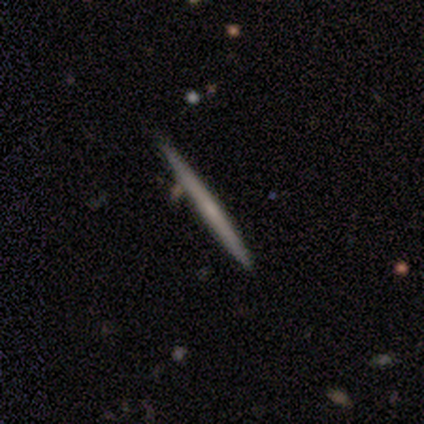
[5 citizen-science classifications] This appears to be a featured or disk galaxy (80%) viewed edge-on (100%) with no central bulge (75%). Merging: none (100%).